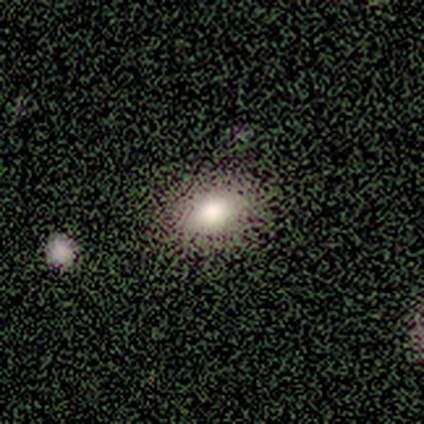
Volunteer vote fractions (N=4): Volunteers were most divided on "smooth or featured": smooth: 75%, featured or disk: 25%, star or artifact: 0%. More confident: how rounded — in between (100%); merging — none (75%).